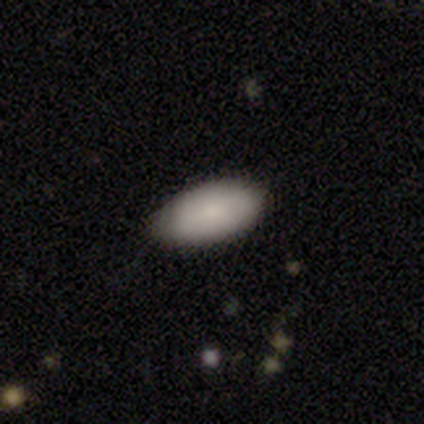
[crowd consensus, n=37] smooth 84%, featured or disk 11%, star or artifact 5%. Down the decision tree: how rounded — in between (94%); merging — none (77%).